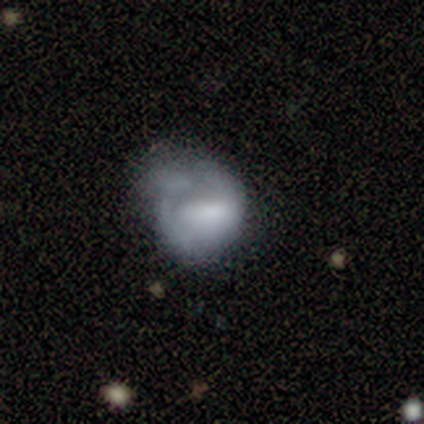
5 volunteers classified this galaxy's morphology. smooth-or-featured: featured or disk: 60% | smooth: 40% | star or artifact: 0%
  disk-edge-on: no: 100% | yes: 0%
    bar: no: 67% | weak: 33% | strong: 0%
    has-spiral-arms: no: 100% | yes: 0%
    bulge-size: none: 67% | small: 33% | dominant: 0% | large: 0% | moderate: 0%
  merging: major disturbance: 60% | none: 20% | minor disturbance: 20% | merger: 0%